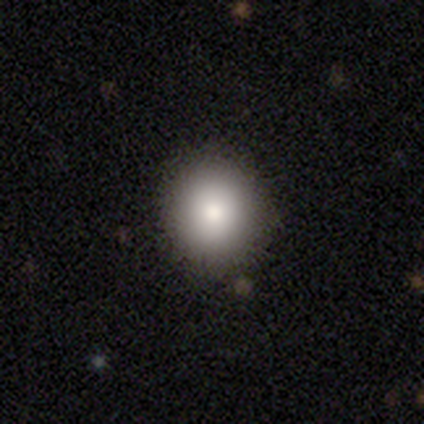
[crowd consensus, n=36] Smooth or featured?
  - smooth: 81% *
  - star or artifact: 11%
  - featured or disk: 8%
How rounded?
  - round: 66% *
  - in between: 28%
  - cigar-shaped: 7%
Merging?
  - none: 84% *
  - minor disturbance: 12%
  - merger: 3%
  - major disturbance: 0%